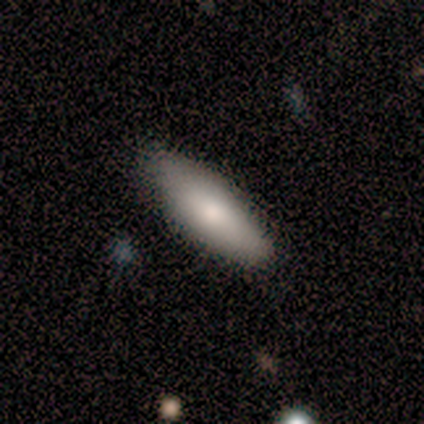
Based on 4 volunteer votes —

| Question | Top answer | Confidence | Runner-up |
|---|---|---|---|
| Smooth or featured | smooth | 75% | featured or disk (25%) |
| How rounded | in between | 100% | — |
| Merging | none | 100% | — |